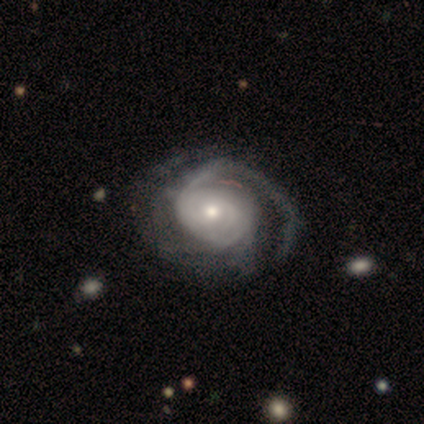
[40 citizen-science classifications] Overall: featured or disk (98%). Edge-on disk: no (100%). Bar: no (92%). Spiral arms: yes (95%). Spiral arm count: can't tell (41%; 1 30%). Spiral winding: tight (65%). Bulge size: moderate (49%; small 41%). Merging: none (38%; major disturbance 21%).